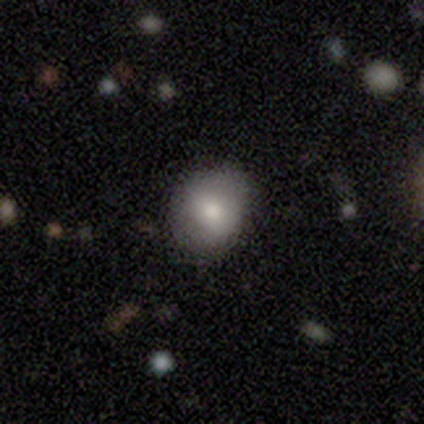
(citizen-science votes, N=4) This appears to be a smooth galaxy with no disk features (75%) that is round (100%). Merging: none (100%).